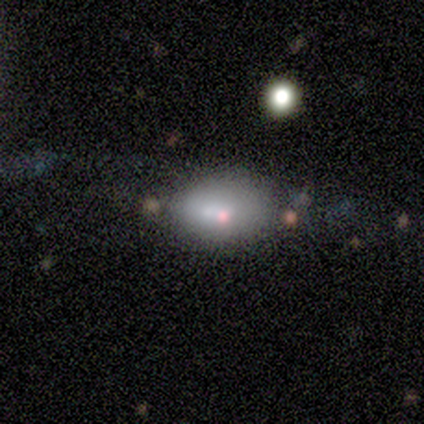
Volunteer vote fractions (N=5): Smooth or featured? 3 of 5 (60%) said smooth. How rounded? 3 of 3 (100%) said in between. Merging? 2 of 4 (50%) said major disturbance.